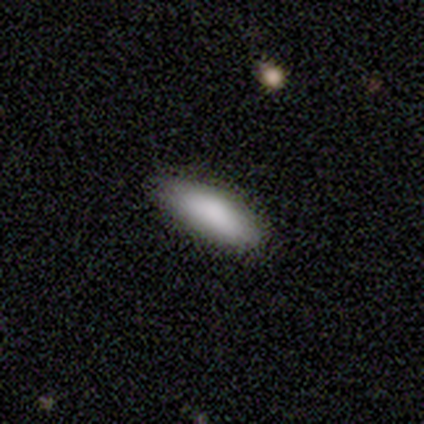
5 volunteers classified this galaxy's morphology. A smooth galaxy with no disk features (80%) that is in between round and cigar-shaped (75%).

Vote fractions:
- Smooth or featured? smooth: 80% / star or artifact: 20% / featured or disk: 0%
- How rounded? in between: 75% / cigar-shaped: 25% / round: 0%
- Merging? none: 50% (tied) / minor disturbance: 50% (tied) / major disturbance: 0% / merger: 0%